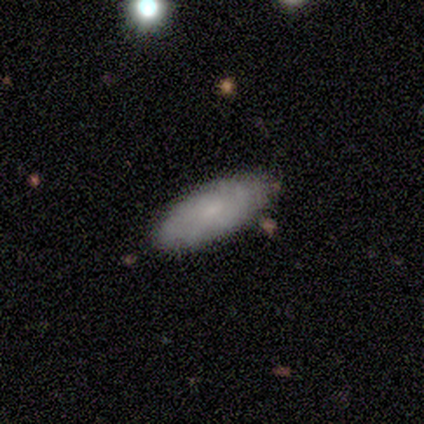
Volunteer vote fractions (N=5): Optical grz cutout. It shows a featured or disk galaxy (80%) viewed edge-on (50%, tied with no) with no central bulge (50%, tied with rounded). Merging: none (100%).